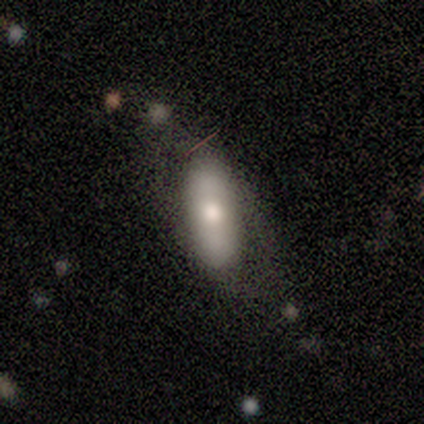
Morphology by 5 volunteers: Smooth or featured: smooth — 60% (featured or disk — 40%)
How rounded: cigar-shaped — 67% (in between — 33%)
Merging: none — 60% (minor disturbance — 20%)